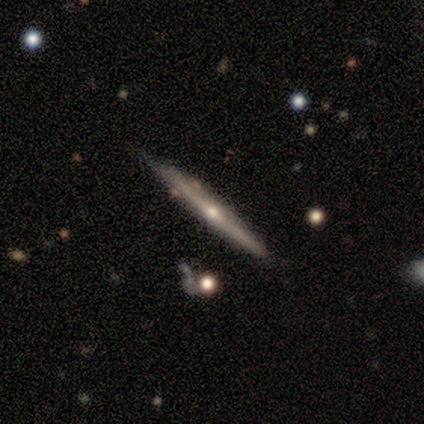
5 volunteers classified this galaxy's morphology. Volunteers were most divided on "edge-on disk": yes: 67%, no: 33%. More confident: edge-on bulge — rounded (100%); merging — none (100%); smooth or featured — featured or disk (60%).